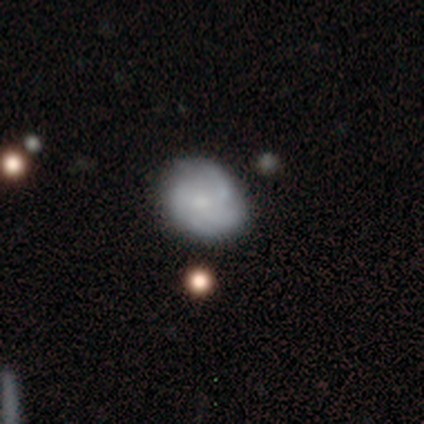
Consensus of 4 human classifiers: smooth 50% (tied), featured or disk 50% (tied), star or artifact 0%. Down the decision tree: how rounded — in between (100%); merging — none (75%).